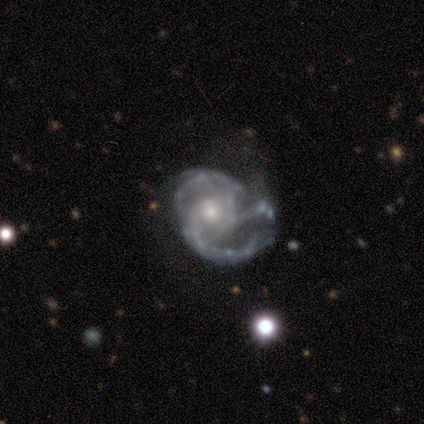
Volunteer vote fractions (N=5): Smooth or featured? featured or disk (100%)
Edge-on disk? no (100%)
Bar? weak (60%)
Spiral arms? yes (60%)
Spiral winding? tight (33%, tied with medium and loose)
Spiral arm count? can't tell (67%)
Bulge size? small (60%)
Merging? none (60%)